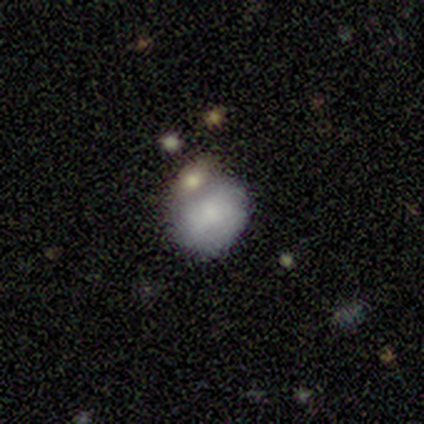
Overall: star or artifact (50%; smooth 25%).